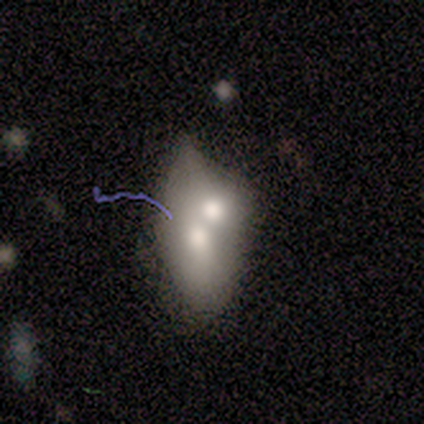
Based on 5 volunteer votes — Volunteers were most divided on "smooth or featured": smooth: 60%, featured or disk: 40%, star or artifact: 0%. More confident: how rounded — in between (100%); merging — merger (100%).